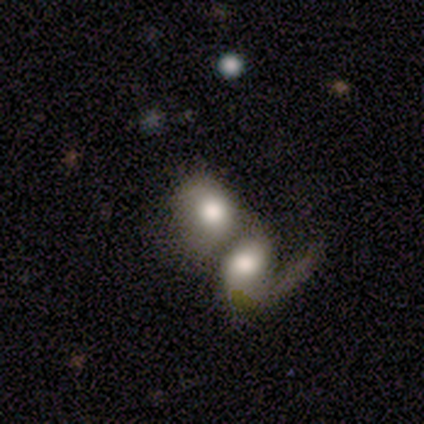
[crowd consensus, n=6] This appears to be a smooth galaxy with no disk features (67%) that is round (50%, tied with in between). Merging: merger (100%).